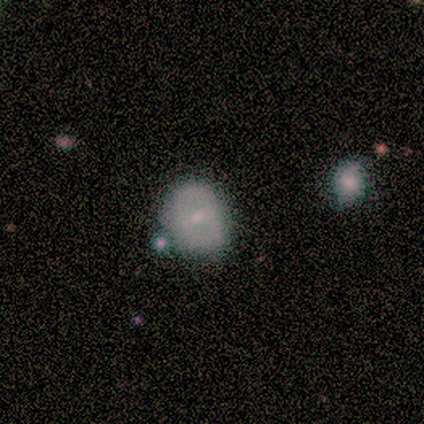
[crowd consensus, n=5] Smooth or featured? 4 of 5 (80%) said featured or disk. Edge-on disk? 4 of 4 (100%) said no. Bar? 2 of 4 (50%, tied with no) said weak. Spiral arms? 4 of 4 (100%) said no. Bulge size? 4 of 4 (100%) said small. Merging? 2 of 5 (40%) said major disturbance.